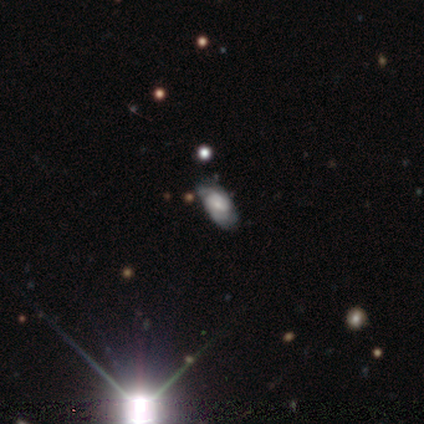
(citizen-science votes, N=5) smooth-or-featured: featured or disk: 60% | smooth: 40% | star or artifact: 0%
  disk-edge-on: no: 67% | yes: 33%
    bar: no: 100% | strong: 0% | weak: 0%
    has-spiral-arms: yes: 100% | no: 0%
      spiral-winding: tight: 100% | medium: 0% | loose: 0%
      spiral-arm-count: 2: 50% (tied) | can't tell: 50% (tied) | 1: 0% | 3: 0% | 4: 0% | more than 4: 0%
    bulge-size: small: 100% | dominant: 0% | large: 0% | moderate: 0% | none: 0%
  merging: none: 40% (tied) | minor disturbance: 40% (tied) | major disturbance: 20% | merger: 0%